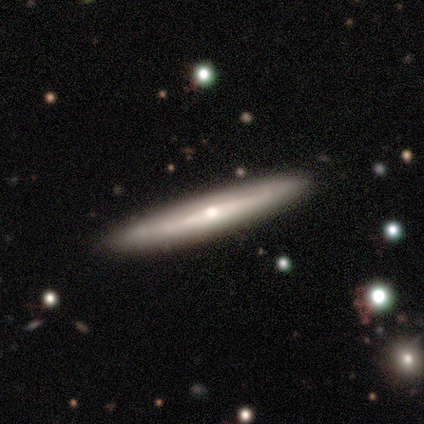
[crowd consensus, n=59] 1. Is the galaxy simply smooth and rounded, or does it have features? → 64% featured or disk, 34% smooth, 2% star or artifact.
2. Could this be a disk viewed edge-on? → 84% yes, 16% no.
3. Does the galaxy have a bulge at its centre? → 88% rounded, 12% none, 0% boxy.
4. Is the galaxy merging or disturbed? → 71% none, 7% merger, 2% minor disturbance, 0% major disturbance.